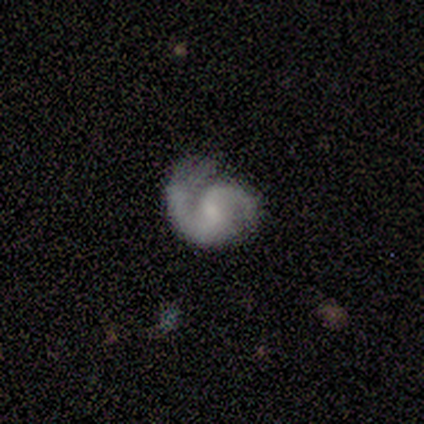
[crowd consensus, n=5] Overall: featured or disk (100%). Edge-on disk: no (100%). Bar: no (60%; strong 20%). Spiral arms: yes (100%). Spiral arm count: 2 (100%). Spiral winding: tight (60%; medium 20%). Bulge size: small (60%; moderate 20%). Merging: none (80%).